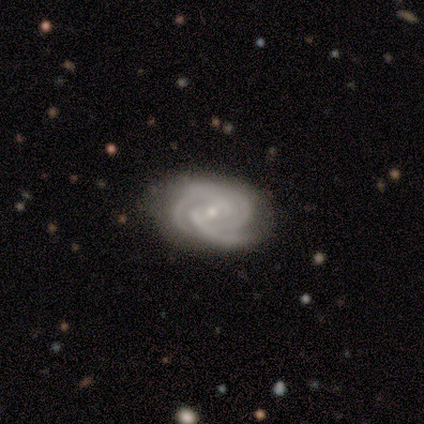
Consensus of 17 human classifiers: A featured or disk galaxy (100%) with a weak bar (59%), 3 (76%) tight (82%) spiral arms (100%) and a small central bulge (71%).

Vote fractions:
- Smooth or featured? featured or disk: 100% / smooth: 0% / star or artifact: 0%
- Edge-on disk? no: 100% / yes: 0%
- Bar? weak: 59% / no: 24% / strong: 18%
- Spiral arms? yes: 100% / no: 0%
- Spiral winding? tight: 82% / medium: 18% / loose: 0%
- Spiral arm count? 3: 76% / 2: 12% / 4: 12% / 1: 0% / more than 4: 0% / can't tell: 0%
- Bulge size? small: 71% / moderate: 24% / large: 6% / dominant: 0% / none: 0%
- Merging? none: 59% / minor disturbance: 41% / major disturbance: 0% / merger: 0%